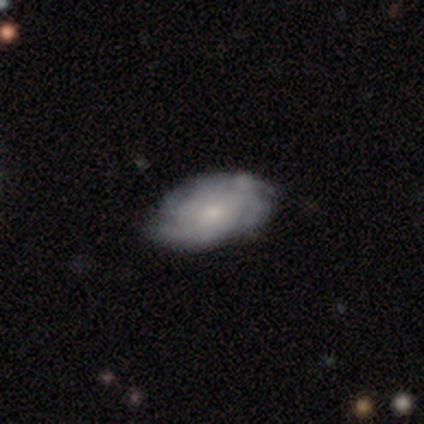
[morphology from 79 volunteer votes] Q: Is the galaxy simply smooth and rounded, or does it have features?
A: featured or disk — 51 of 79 (65%).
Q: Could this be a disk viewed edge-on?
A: no — 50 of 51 (98%).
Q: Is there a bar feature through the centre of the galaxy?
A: no — 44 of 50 (88%).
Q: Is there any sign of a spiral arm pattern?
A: yes — 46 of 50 (92%).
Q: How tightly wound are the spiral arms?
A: tight — 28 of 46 (61%).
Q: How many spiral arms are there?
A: can't tell — 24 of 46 (52%).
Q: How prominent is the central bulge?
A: small — 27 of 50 (54%).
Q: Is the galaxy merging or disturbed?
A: none — 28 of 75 (37%).